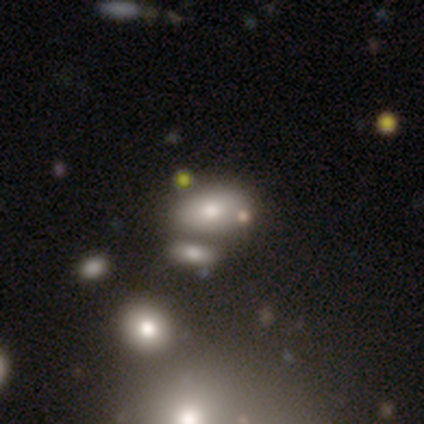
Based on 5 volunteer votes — smooth_or_featured: smooth (p=0.60) [alt: featured or disk p=0.20]
how_rounded: in between (p=0.67) [alt: round p=0.33]
merging: none (p=0.75) [alt: merger p=0.25]